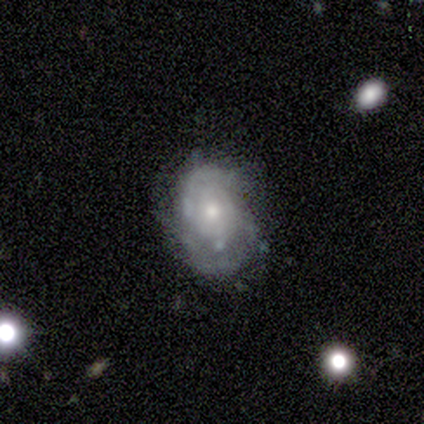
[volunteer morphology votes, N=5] smooth-or-featured: featured or disk: 100% | smooth: 0% | star or artifact: 0%
  disk-edge-on: no: 100% | yes: 0%
    bar: no: 80% | weak: 20% | strong: 0%
    has-spiral-arms: yes: 100% | no: 0%
      spiral-winding: medium: 60% | tight: 40% | loose: 0%
      spiral-arm-count: can't tell: 60% | 2: 40% | 1: 0% | 3: 0% | 4: 0% | more than 4: 0%
    bulge-size: small: 80% | moderate: 20% | dominant: 0% | large: 0% | none: 0%
  merging: none: 60% | minor disturbance: 40% | major disturbance: 0% | merger: 0%